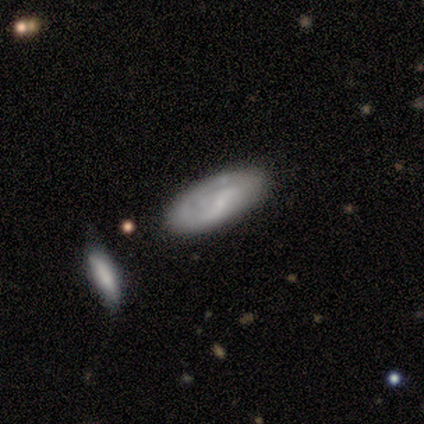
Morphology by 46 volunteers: Overall: featured or disk (50%; smooth 46%). Edge-on disk: no (91%). Bar: weak (48%; no 43%). Spiral arms: yes (71%). Spiral arm count: 2 (60%; can't tell 33%). Spiral winding: tight (47%; medium 27%). Bulge size: small (71%). Merging: none (50%; minor disturbance 32%).